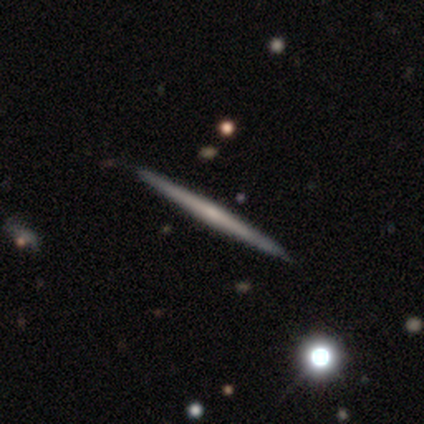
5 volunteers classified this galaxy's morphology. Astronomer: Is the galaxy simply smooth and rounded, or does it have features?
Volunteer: featured or disk — 60% (runner-up: smooth, 40%).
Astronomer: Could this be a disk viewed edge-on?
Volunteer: yes — 100%.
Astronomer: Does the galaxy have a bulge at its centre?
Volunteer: none — 67%.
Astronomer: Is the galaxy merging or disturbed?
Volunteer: none — 80%.